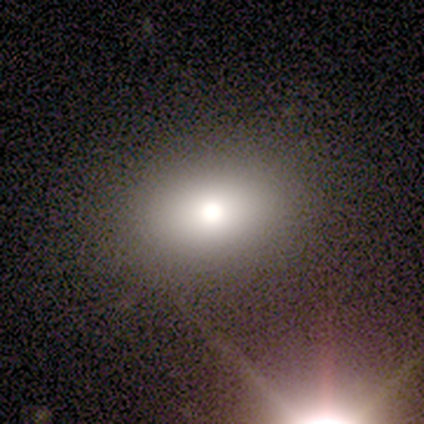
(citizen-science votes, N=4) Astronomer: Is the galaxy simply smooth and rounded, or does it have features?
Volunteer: smooth — 50%.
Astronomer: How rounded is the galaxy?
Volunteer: in between — 100%.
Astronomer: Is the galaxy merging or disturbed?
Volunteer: none — 67%.